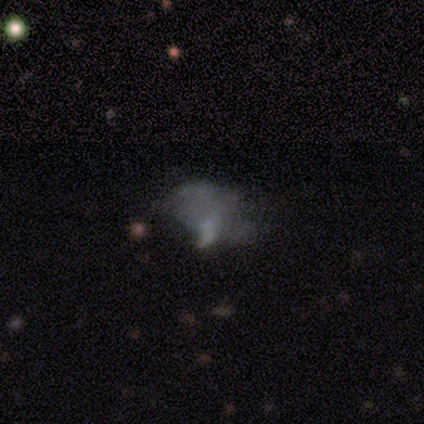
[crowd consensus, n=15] Volunteers were most divided on "merging": none: 43%, major disturbance: 36%, minor disturbance: 21%, merger: 0%. More confident: how rounded — in between (88%); smooth or featured — smooth (53%).